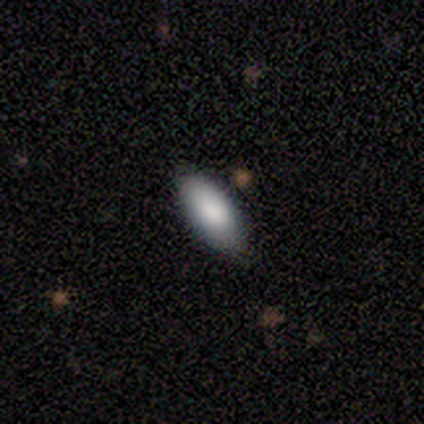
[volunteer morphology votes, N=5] Smooth or featured: smooth — 80% (featured or disk — 20%)
How rounded: in between — 100%
Merging: none — 80% (minor disturbance — 20%)